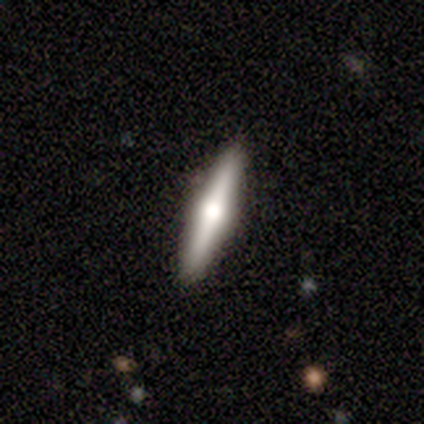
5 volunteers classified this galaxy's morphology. Smooth or featured? 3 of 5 (60%) said smooth. How rounded? 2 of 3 (67%) said cigar-shaped. Merging? 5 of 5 (100%) said none.